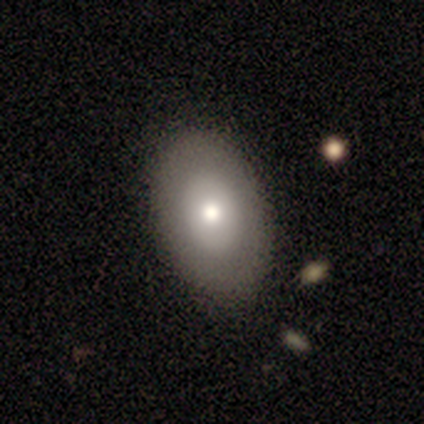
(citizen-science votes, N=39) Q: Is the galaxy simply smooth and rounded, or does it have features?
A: smooth — 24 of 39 (62%).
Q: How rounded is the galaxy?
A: in between — 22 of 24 (92%).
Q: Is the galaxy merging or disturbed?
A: none — 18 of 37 (49%).